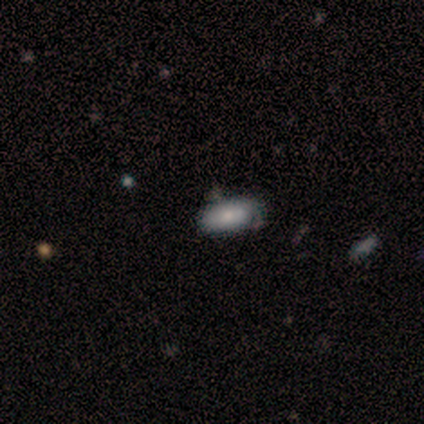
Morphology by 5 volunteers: Volunteers were most divided on "merging": minor disturbance: 60%, none: 40%, major disturbance: 0%, merger: 0%. More confident: smooth or featured — smooth (100%); how rounded — in between (100%).